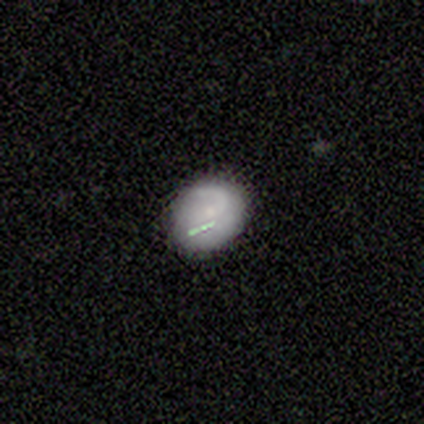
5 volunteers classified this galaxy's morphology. A smooth galaxy with no disk features (60%) that is round (67%).

Vote fractions:
- Smooth or featured? smooth: 60% / featured or disk: 40% / star or artifact: 0%
- How rounded? round: 67% / in between: 33% / cigar-shaped: 0%
- Merging? minor disturbance: 60% / none: 20% / merger: 20% / major disturbance: 0%